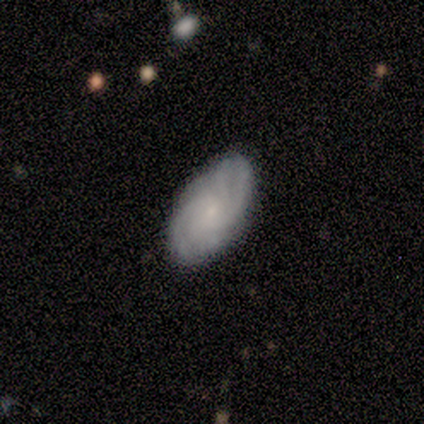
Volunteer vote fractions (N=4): smooth_or_featured: featured or disk (p=0.75) [alt: smooth p=0.25]
disk_edge_on: no (p=1.00)
bar: no (p=1.00)
has_spiral_arms: yes (p=0.67) [alt: no p=0.33]
spiral_winding: tight (p=1.00)
spiral_arm_count: 4 (p=0.50) [tied with: can't tell p=0.50]
bulge_size: small (p=1.00)
merging: none (p=0.50) [tied with: minor disturbance p=0.50]